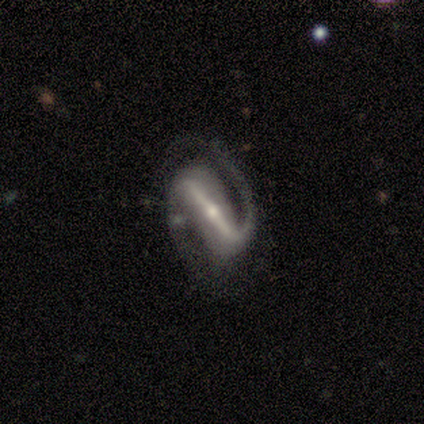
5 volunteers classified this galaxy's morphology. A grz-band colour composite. It shows a featured or disk galaxy (100%) with a strong bar (100%), 2 (100%) medium (50%) spiral arms (100%) and a moderate central bulge (50%, tied with small). Merging: none (100%).